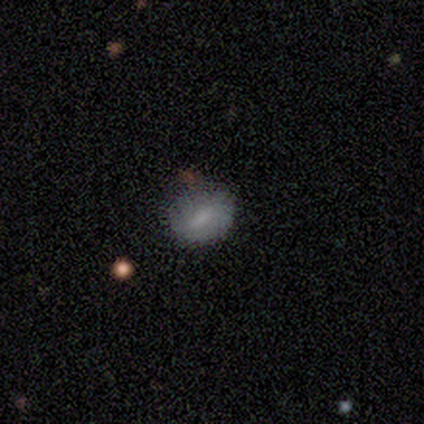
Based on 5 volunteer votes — smooth_or_featured: smooth (p=0.80) [alt: featured or disk p=0.20]
how_rounded: in between (p=0.75) [alt: round p=0.25]
merging: none (p=0.80) [alt: minor disturbance p=0.20]